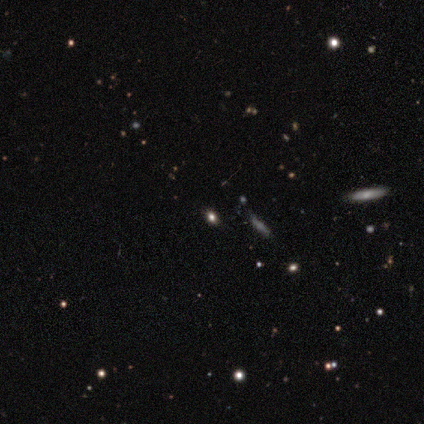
Overall: smooth (60%; star or artifact 40%). How rounded: round (67%; in between 33%). Merging: none (67%; minor disturbance 33%).